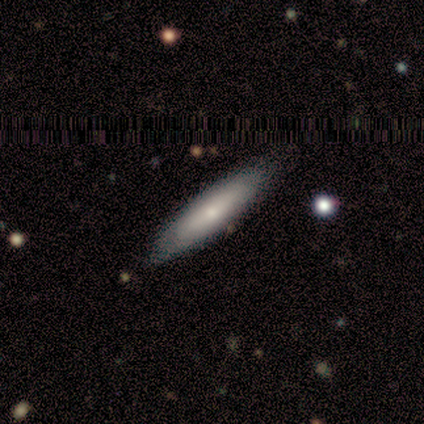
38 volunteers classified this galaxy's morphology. Volunteers were most divided on "smooth or featured": smooth: 58%, featured or disk: 39%, star or artifact: 3%. More confident: how rounded — cigar-shaped (86%); merging — none (73%).